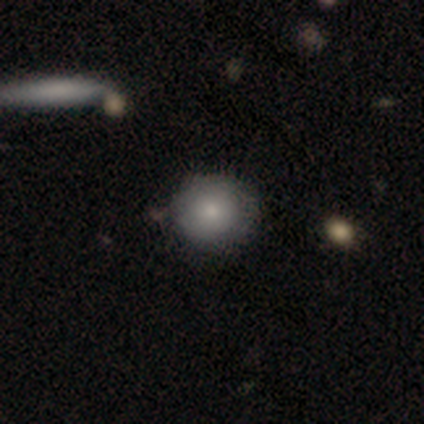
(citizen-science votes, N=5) Smooth or featured: smooth — 60% (featured or disk — 20%)
How rounded: round — 100%
Merging: none — 75% (minor disturbance — 25%)